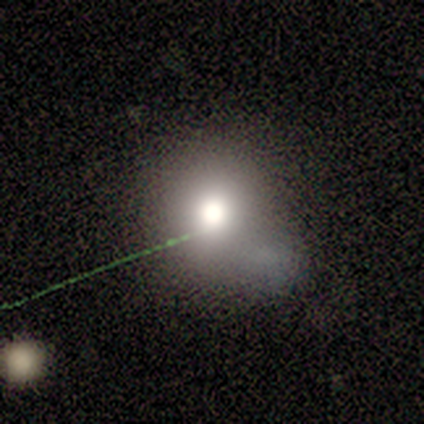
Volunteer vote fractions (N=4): This appears to be a smooth galaxy with no disk features (75%) that is round (67%). Merging: none (33%, tied with major disturbance and merger).